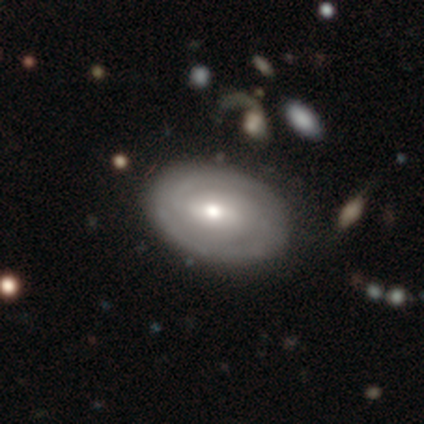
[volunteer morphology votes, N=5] featured or disk 80%, smooth 20%, star or artifact 0%. Down the decision tree: edge-on disk — no (100%); bar — weak (75%); spiral arms — yes (75%); spiral arm count — can't tell (100%); spiral winding — medium (67%); bulge size — moderate (75%); merging — none (100%).